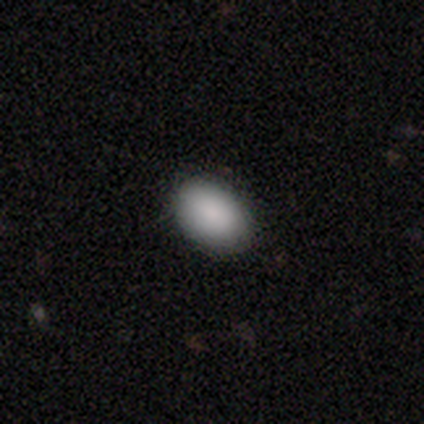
Q: Smooth or featured?
A: smooth (95%); runner-up: featured or disk (5%)
Q: How rounded?
A: in between (87%); runner-up: round (11%)
Q: Merging?
A: none (90%); runner-up: minor disturbance (10%)